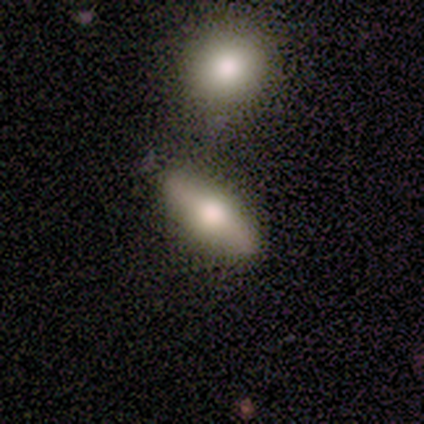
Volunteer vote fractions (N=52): Volunteers were most divided on "smooth or featured": smooth: 52%, featured or disk: 44%, star or artifact: 4%. More confident: merging — none (76%); how rounded — in between (59%).